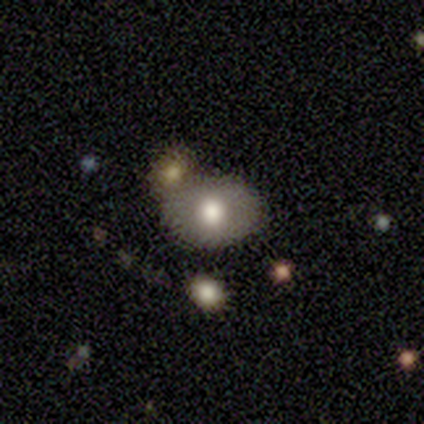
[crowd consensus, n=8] A smooth galaxy with no disk features (75%) that is in between round and cigar-shaped (100%). Merging: none (57%).